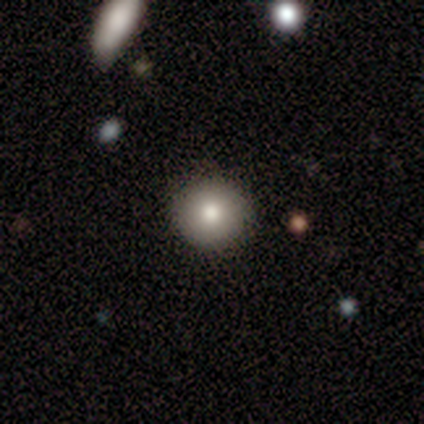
Morphology: type=smooth (80%); roundness=round (100%); merging=none (100%).